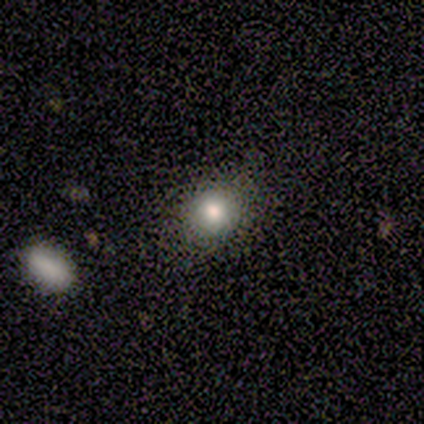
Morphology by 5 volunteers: A smooth galaxy with no disk features (100%) that is round (60%).

Vote fractions:
- Smooth or featured? smooth: 100% / featured or disk: 0% / star or artifact: 0%
- How rounded? round: 60% / in between: 40% / cigar-shaped: 0%
- Merging? none: 80% / minor disturbance: 20% / major disturbance: 0% / merger: 0%